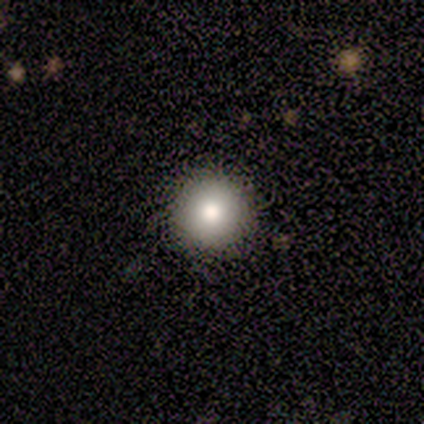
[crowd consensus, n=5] Smooth or featured? smooth (100%)
How rounded? round (100%)
Merging? none (100%)